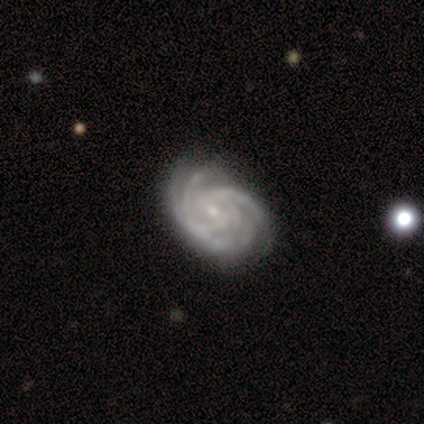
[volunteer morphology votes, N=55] Volunteers were most divided on "spiral arm count" (2-way tie): 3: 30%, more than 4: 30%, 4: 18%, can't tell: 16%, 2: 7%, 1: 0%. Remaining: spiral arms — yes (100%); edge-on disk — no (96%); bulge size — small (89%); smooth or featured — featured or disk (84%); spiral winding — tight (75%); merging — none (71%); bar — no (48%).